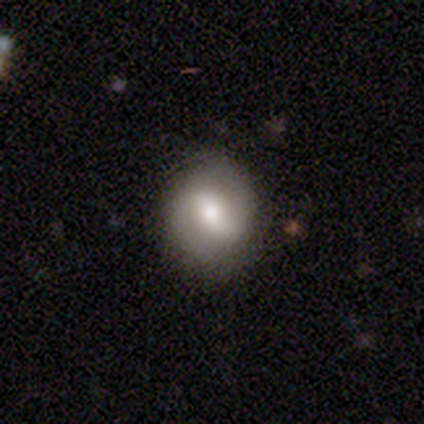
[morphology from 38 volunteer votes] Smooth or featured?
  - smooth: 47% * (tied)
  - featured or disk: 47% * (tied)
  - star or artifact: 5%
How rounded?
  - round: 67% *
  - in between: 33%
  - cigar-shaped: 0%
Merging?
  - none: 72% *
  - minor disturbance: 28%
  - major disturbance: 0%
  - merger: 0%